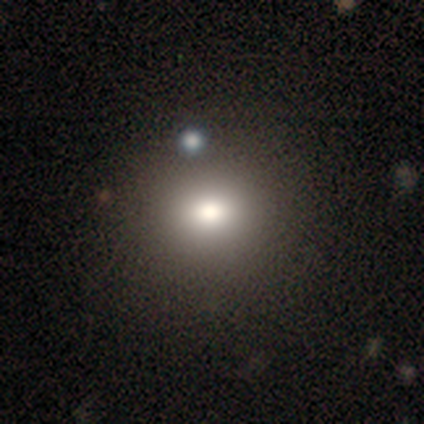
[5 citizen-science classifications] Smooth or featured: smooth — 80% (star or artifact — 20%)
How rounded: round — 75% (in between — 25%)
Merging: none — 75% (merger — 25%)